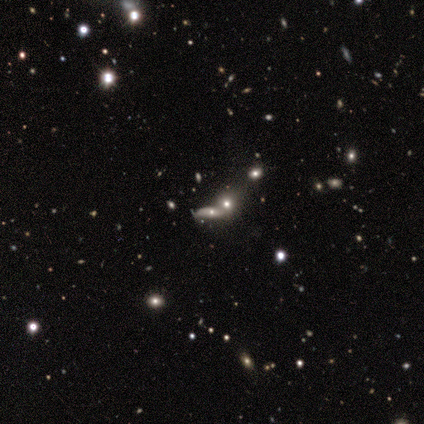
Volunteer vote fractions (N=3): Smooth or featured?
  - smooth: 67% *
  - featured or disk: 33%
  - star or artifact: 0%
How rounded?
  - cigar-shaped: 100% *
  - round: 0%
  - in between: 0%
Merging?
  - merger: 67% *
  - none: 33%
  - minor disturbance: 0%
  - major disturbance: 0%